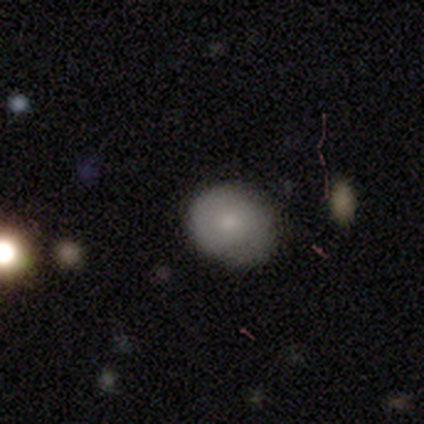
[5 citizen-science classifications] Q: Smooth or featured?
A: featured or disk (60%); runner-up: smooth (40%)
Q: Edge-on disk?
A: no (100%)
Q: Bar?
A: no (100%)
Q: Spiral arms?
A: yes (67%); runner-up: no (33%)
Q: Spiral winding?
A: medium (100%)
Q: Spiral arm count?
A: 2 (50%); tied with: can't tell (50%)
Q: Bulge size?
A: small (67%); runner-up: moderate (33%)
Q: Merging?
A: none (60%); runner-up: minor disturbance (20%)